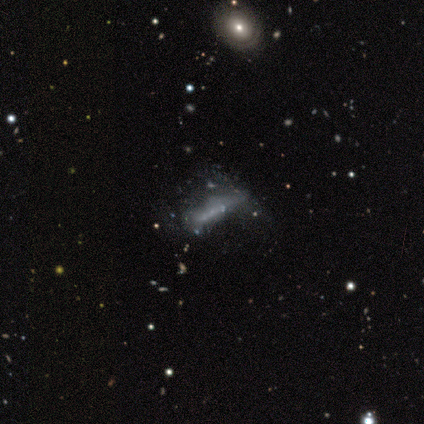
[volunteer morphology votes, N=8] smooth-or-featured: featured or disk: 75% | smooth: 25% | star or artifact: 0%
  disk-edge-on: yes: 50% (tied) | no: 50% (tied)
    edge-on-bulge: none: 100% | boxy: 0% | rounded: 0%
  merging: minor disturbance: 38% | none: 25% | major disturbance: 25% | merger: 12%